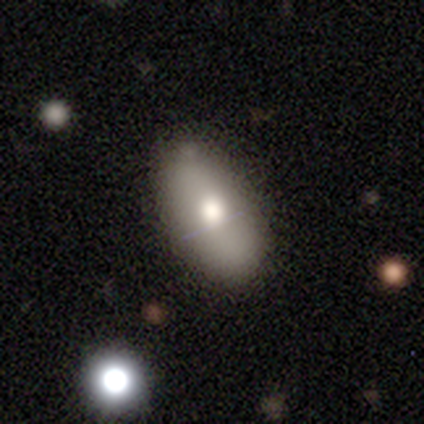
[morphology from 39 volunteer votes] smooth_or_featured: smooth (p=0.67) [alt: featured or disk p=0.23]
how_rounded: in between (p=0.92) [alt: round p=0.04]
merging: none (p=0.69) [alt: minor disturbance p=0.17]